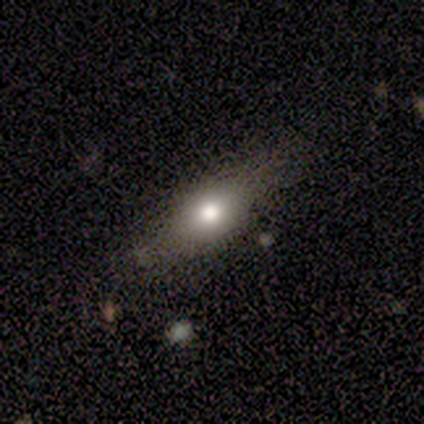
A smooth galaxy with no disk features (75%) that is round (33%, tied with in between and cigar-shaped). Merging: none (33%, tied with minor disturbance and merger).